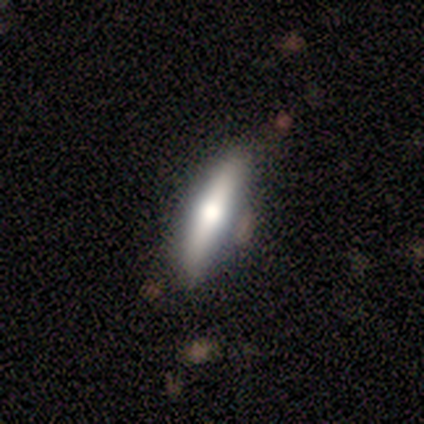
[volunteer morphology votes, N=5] featured or disk 60%, smooth 40%, star or artifact 0%. Down the decision tree: edge-on disk — yes (100%); edge-on bulge — rounded (100%); merging — none (100%).